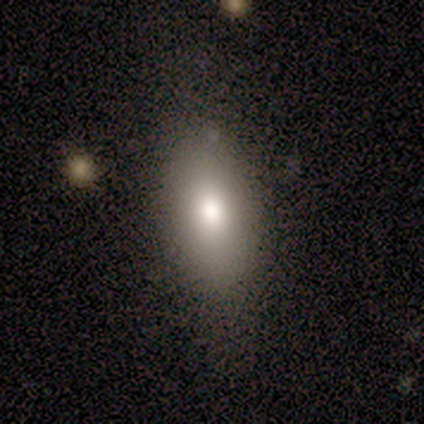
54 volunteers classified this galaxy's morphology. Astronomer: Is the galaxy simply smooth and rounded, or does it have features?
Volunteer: smooth — 91%.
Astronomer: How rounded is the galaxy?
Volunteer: in between — 86%.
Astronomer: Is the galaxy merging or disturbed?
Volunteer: none — 81%.